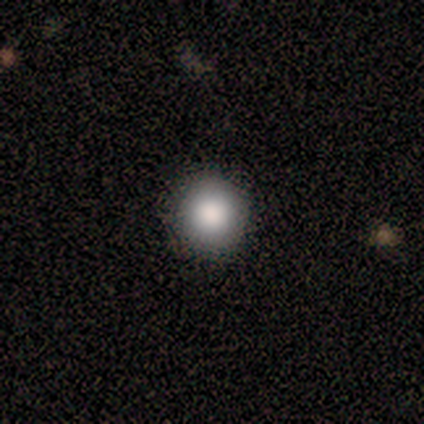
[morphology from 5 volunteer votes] Q: Smooth or featured?
A: smooth (80%); runner-up: star or artifact (20%)
Q: How rounded?
A: round (100%)
Q: Merging?
A: none (100%)